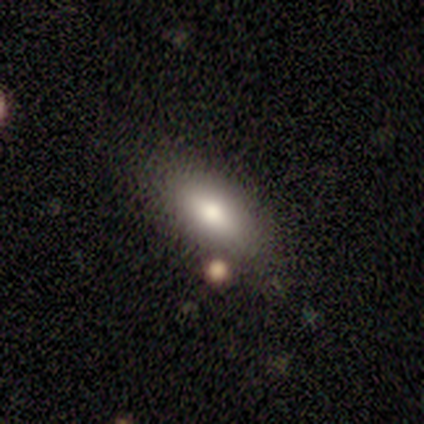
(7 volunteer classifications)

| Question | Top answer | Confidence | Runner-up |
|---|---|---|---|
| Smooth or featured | smooth | 71% | featured or disk (29%) |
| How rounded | in between | 80% | cigar-shaped (20%) |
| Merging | none | 71% | minor disturbance (14%) |